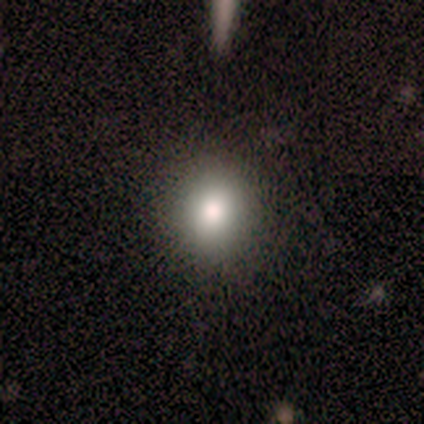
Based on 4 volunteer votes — Overall: smooth (100%). How rounded: round (75%). Merging: none (75%).